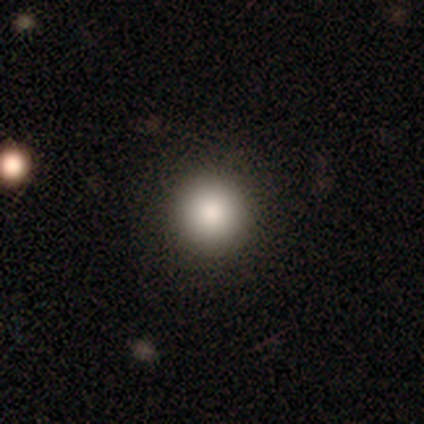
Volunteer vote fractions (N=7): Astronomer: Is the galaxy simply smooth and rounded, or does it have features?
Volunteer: smooth — 86%.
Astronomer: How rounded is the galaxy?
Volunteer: round — 100%.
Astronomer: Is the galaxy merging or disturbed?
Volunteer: none — 100%.